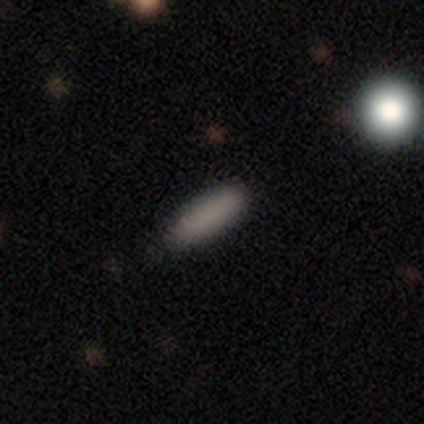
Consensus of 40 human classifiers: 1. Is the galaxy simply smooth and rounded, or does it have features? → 88% smooth, 10% star or artifact, 2% featured or disk.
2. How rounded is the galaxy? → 63% cigar-shaped, 37% in between, 0% round.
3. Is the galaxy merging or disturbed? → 89% none, 8% minor disturbance, 3% major disturbance, 0% merger.